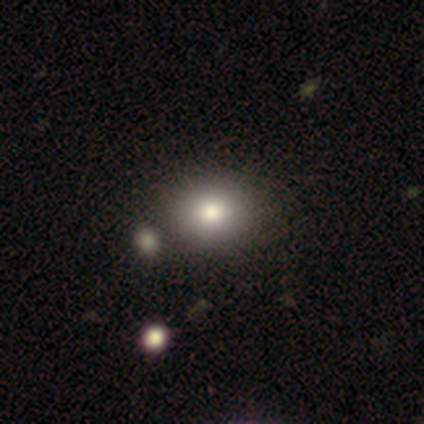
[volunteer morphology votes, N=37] A smooth galaxy with no disk features (81%) that is in between round and cigar-shaped (53%).

Vote fractions:
- Smooth or featured? smooth: 81% / star or artifact: 14% / featured or disk: 5%
- How rounded? in between: 53% / round: 47% / cigar-shaped: 0%
- Merging? none: 56% / merger: 9% / minor disturbance: 3% / major disturbance: 3%